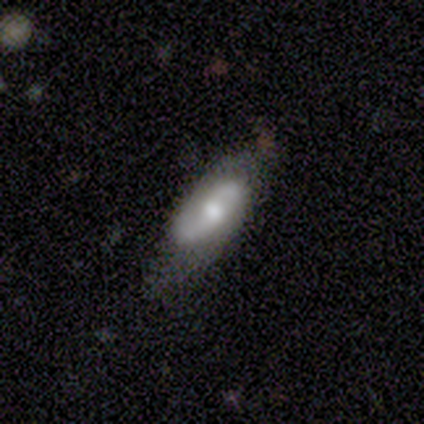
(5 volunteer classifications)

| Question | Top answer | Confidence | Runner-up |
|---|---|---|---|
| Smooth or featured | featured or disk | 100% | — |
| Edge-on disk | no | 60% | yes (40%) |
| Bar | no | 67% | weak (33%) |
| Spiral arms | yes | 100% | — |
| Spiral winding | medium | 100% | — |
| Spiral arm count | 2 | 100% | — |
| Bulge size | moderate | 100% | — |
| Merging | minor disturbance | 60% | none (40%) |